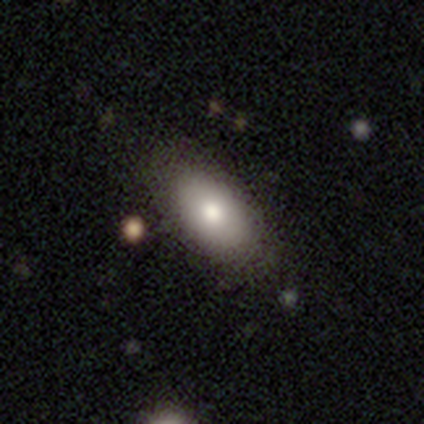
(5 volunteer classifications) Smooth or featured? 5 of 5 (100%) said smooth. How rounded? 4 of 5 (80%) said in between. Merging? 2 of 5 (40%, tied with minor disturbance) said none.